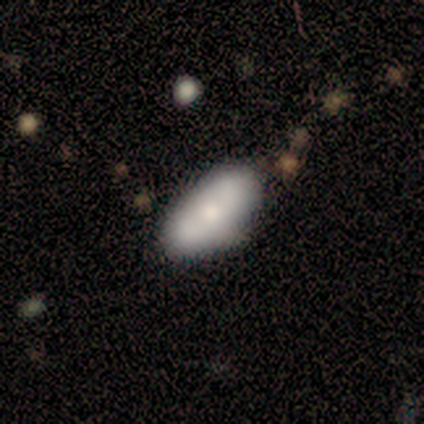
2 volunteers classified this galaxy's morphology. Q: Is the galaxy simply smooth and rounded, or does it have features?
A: star or artifact — 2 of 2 (100%).